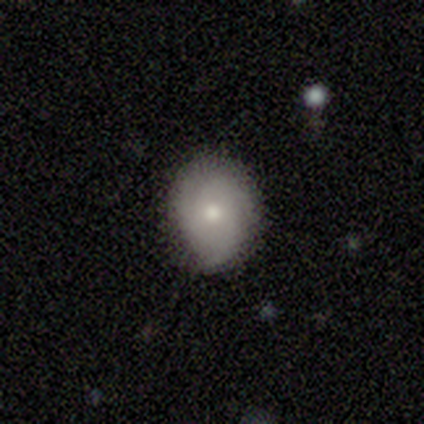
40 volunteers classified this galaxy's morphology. This appears to be a featured or disk galaxy (52%) with no bar (90%), 3 (83%) tight (50%, tied with medium) spiral arms (60%) and a small central bulge (50%). Merging: none (92%).